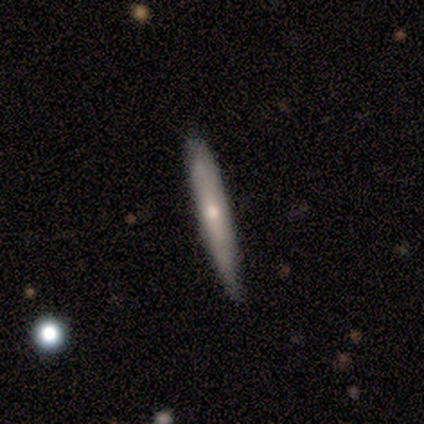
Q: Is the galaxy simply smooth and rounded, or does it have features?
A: featured or disk — 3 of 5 (60%).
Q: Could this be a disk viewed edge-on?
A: yes — 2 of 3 (67%).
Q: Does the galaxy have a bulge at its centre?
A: none — 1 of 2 (50%, tied with rounded).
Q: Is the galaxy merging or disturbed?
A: none — 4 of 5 (80%).